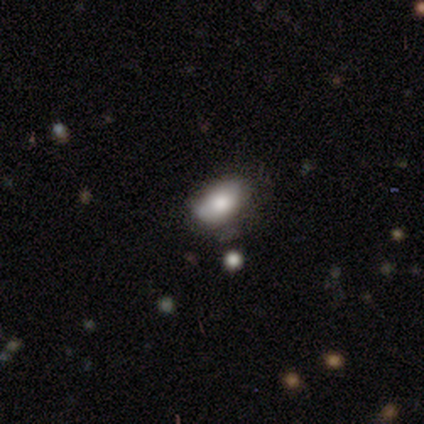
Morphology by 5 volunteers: Overall: smooth (100%). How rounded: in between (100%). Merging: minor disturbance (60%; none 40%).